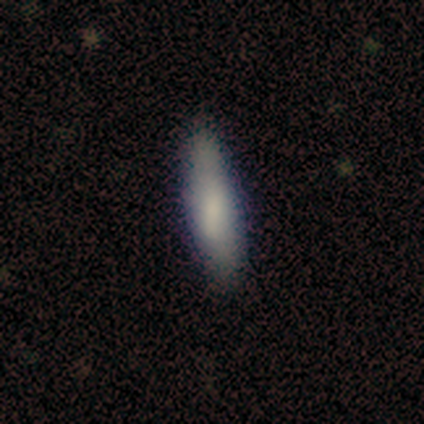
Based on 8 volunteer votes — smooth_or_featured: smooth (p=0.62) [alt: featured or disk p=0.25]
how_rounded: cigar-shaped (p=0.60) [alt: in between p=0.40]
merging: none (p=1.00)